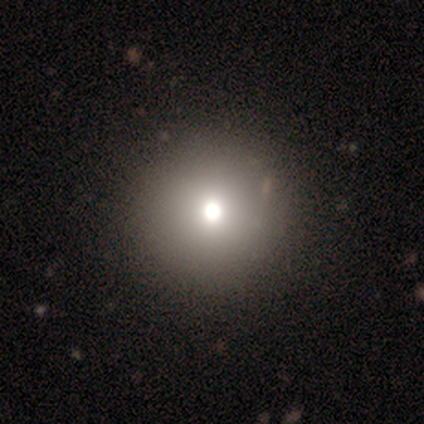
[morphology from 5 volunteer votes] Q: Smooth or featured?
A: smooth (40%); tied with: star or artifact (40%)
Q: How rounded?
A: round (100%)
Q: Merging?
A: none (100%)